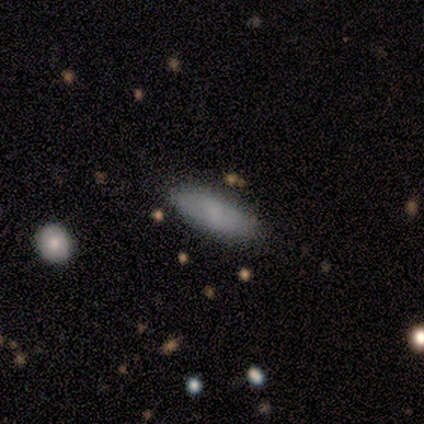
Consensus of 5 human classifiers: A smooth galaxy with no disk features (80%) that is in between round and cigar-shaped (50%, tied with cigar-shaped).

Vote fractions:
- Smooth or featured? smooth: 80% / featured or disk: 20% / star or artifact: 0%
- How rounded? in between: 50% (tied) / cigar-shaped: 50% (tied) / round: 0%
- Merging? none: 60% / minor disturbance: 20% / merger: 20% / major disturbance: 0%